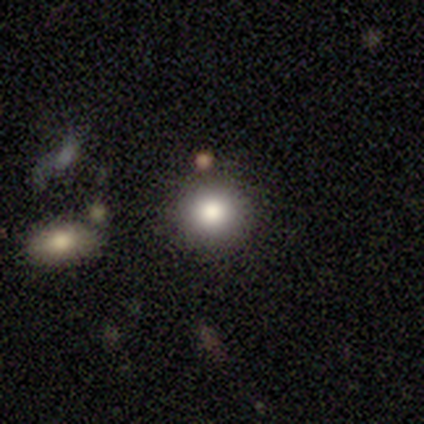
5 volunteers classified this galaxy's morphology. Smooth or featured? 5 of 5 (100%) said smooth. How rounded? 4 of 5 (80%) said round. Merging? 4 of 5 (80%) said none.